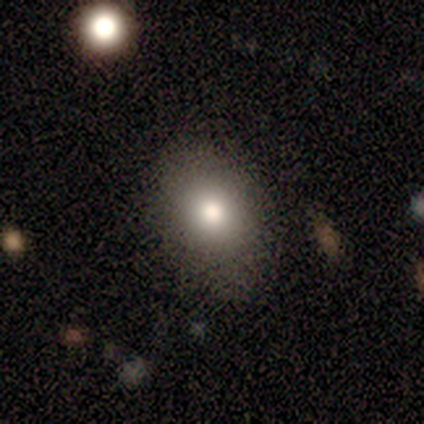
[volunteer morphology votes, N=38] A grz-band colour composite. It shows a smooth galaxy with no disk features (71%) that is in between round and cigar-shaped (70%). Merging: none (59%).